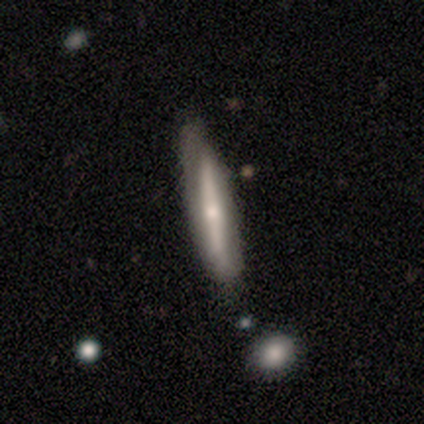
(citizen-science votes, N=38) Smooth or featured? 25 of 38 (66%) said featured or disk. Edge-on disk? 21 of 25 (84%) said yes. Edge-on bulge? 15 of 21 (71%) said rounded. Merging? 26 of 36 (72%) said none.